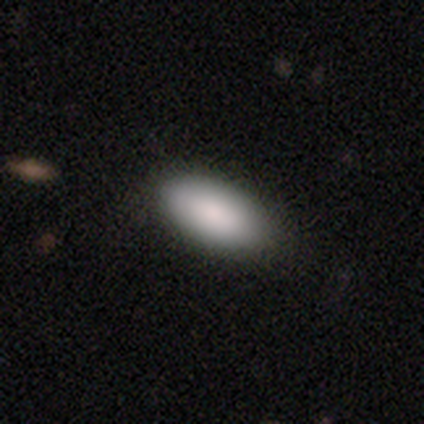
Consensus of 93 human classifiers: smooth-or-featured: smooth: 94% | star or artifact: 5% | featured or disk: 1%
  how-rounded: in between: 86% | cigar-shaped: 11% | round: 2%
  merging: none: 88% | minor disturbance: 7% | major disturbance: 5% | merger: 1%